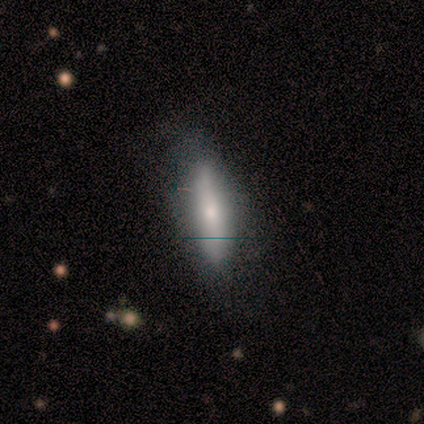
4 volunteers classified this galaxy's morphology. smooth-or-featured: smooth: 100% | featured or disk: 0% | star or artifact: 0%
  how-rounded: cigar-shaped: 75% | in between: 25% | round: 0%
  merging: none: 50% | minor disturbance: 25% | major disturbance: 25% | merger: 0%